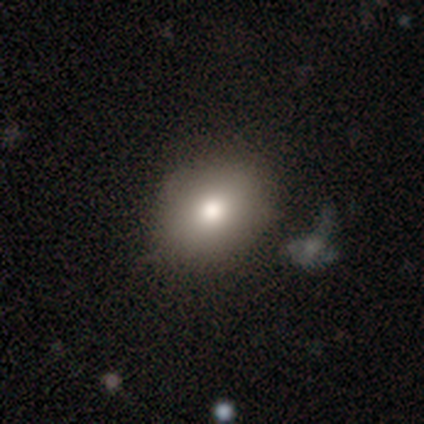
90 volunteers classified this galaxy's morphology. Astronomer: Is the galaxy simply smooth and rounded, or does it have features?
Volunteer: smooth — 77%.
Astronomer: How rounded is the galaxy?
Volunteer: in between — 59% (runner-up: round, 39%).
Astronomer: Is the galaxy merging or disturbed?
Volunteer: none — 84%.